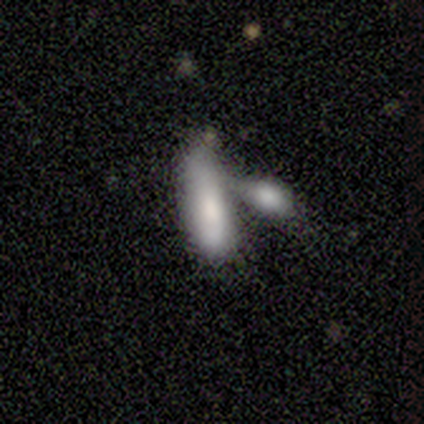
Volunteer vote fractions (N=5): Overall: smooth (60%; featured or disk 40%). How rounded: in between (67%; cigar-shaped 33%). Merging: merger (100%).